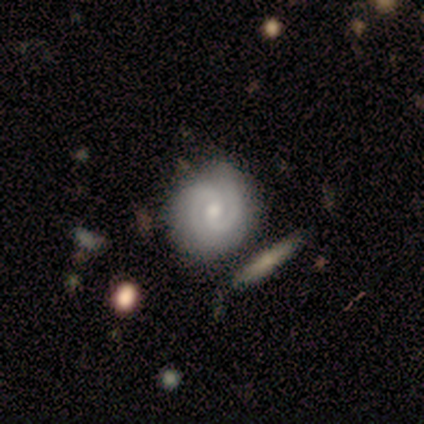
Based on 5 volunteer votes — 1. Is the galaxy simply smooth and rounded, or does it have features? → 40% smooth (tied), 40% featured or disk (tied), 20% star or artifact.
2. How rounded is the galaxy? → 100% round, 0% in between, 0% cigar-shaped.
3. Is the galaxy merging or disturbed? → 50% none, 25% minor disturbance, 25% merger, 0% major disturbance.